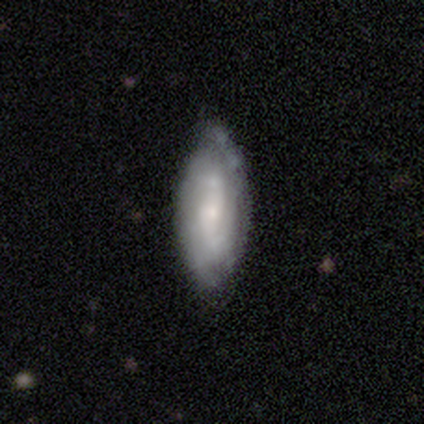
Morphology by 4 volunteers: Smooth or featured: smooth — 50% (tied with featured or disk — 50%)
How rounded: in between — 100%
Merging: none — 50% (tied with minor disturbance — 50%)